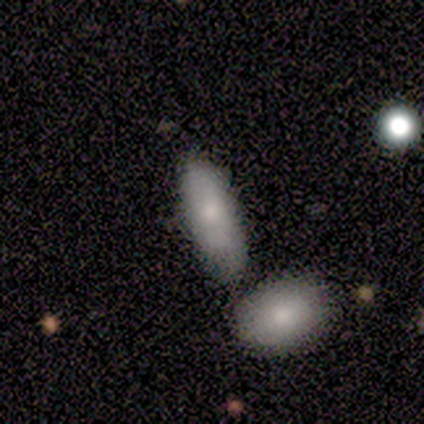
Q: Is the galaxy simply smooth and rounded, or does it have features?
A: smooth — 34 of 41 (83%).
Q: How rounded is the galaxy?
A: in between — 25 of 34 (74%).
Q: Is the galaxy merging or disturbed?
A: none — 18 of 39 (46%).